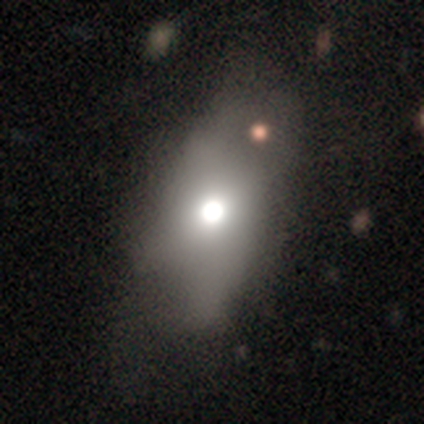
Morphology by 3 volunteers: A smooth galaxy with no disk features (100%) that is in between round and cigar-shaped (100%).

Vote fractions:
- Smooth or featured? smooth: 100% / featured or disk: 0% / star or artifact: 0%
- How rounded? in between: 100% / round: 0% / cigar-shaped: 0%
- Merging? major disturbance: 67% / none: 33% / minor disturbance: 0% / merger: 0%